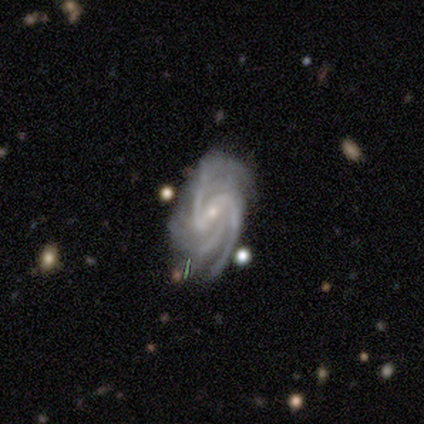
Smooth or featured: featured or disk — 100%
Edge-on disk: no — 100%
Bar: weak — 80% (strong — 20%)
Spiral arms: yes — 100%
Spiral winding: tight — 60% (medium — 20%)
Spiral arm count: 3 — 80% (can't tell — 20%)
Bulge size: small — 100%
Merging: none — 60% (minor disturbance — 40%)